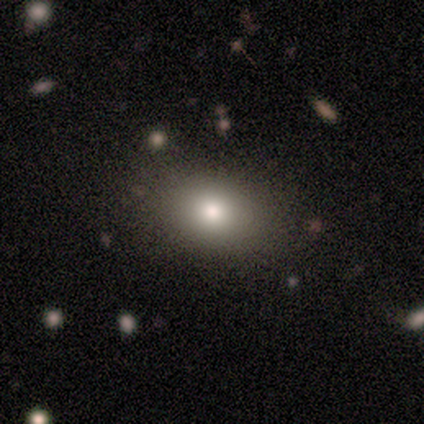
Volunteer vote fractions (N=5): Q: Smooth or featured?
A: smooth (80%); runner-up: star or artifact (20%)
Q: How rounded?
A: in between (75%); runner-up: round (25%)
Q: Merging?
A: none (75%); runner-up: major disturbance (25%)